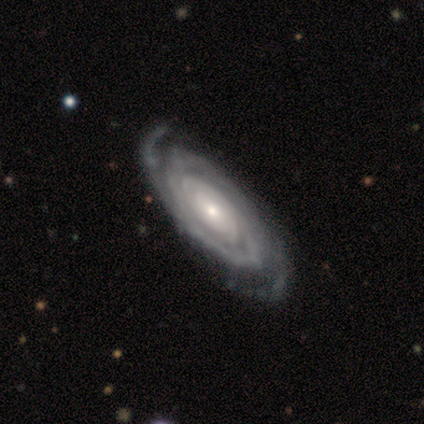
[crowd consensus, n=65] This appears to be a featured or disk galaxy (91%) with no bar (74%), 2 (59%) tight (69%) spiral arms (95%) and a small central bulge (56%). Merging: none (86%).